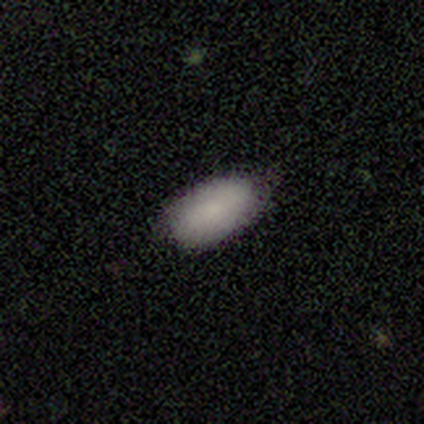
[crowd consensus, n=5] Overall: smooth (100%). How rounded: in between (100%). Merging: none (80%).